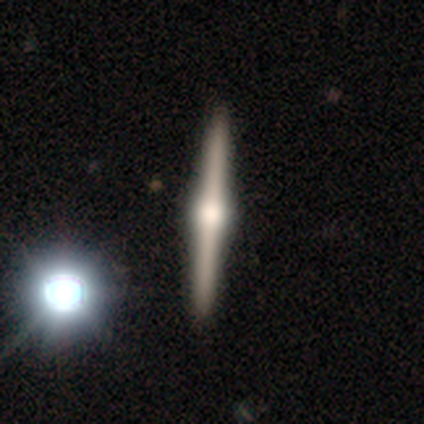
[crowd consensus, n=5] featured or disk 80%, star or artifact 20%, smooth 0%. Down the decision tree: edge-on disk — yes (100%); edge-on bulge — rounded (100%); merging — none (100%).